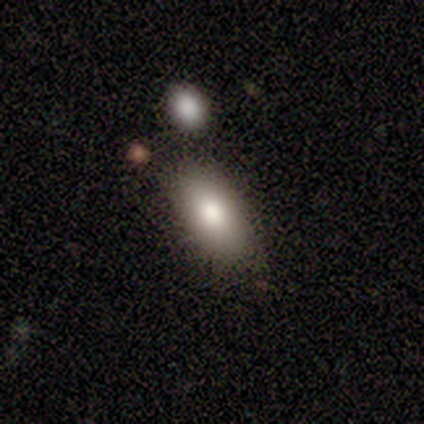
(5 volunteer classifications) smooth-or-featured: smooth: 60% | featured or disk: 40% | star or artifact: 0%
  how-rounded: in between: 100% | round: 0% | cigar-shaped: 0%
  merging: none: 100% | minor disturbance: 0% | major disturbance: 0% | merger: 0%